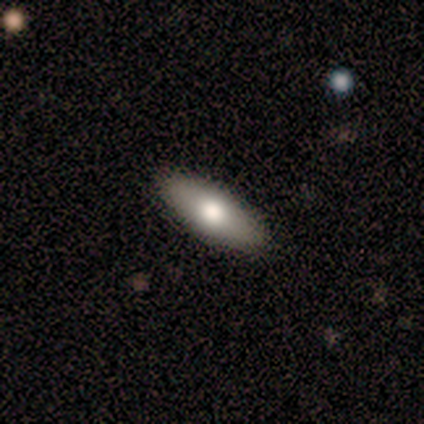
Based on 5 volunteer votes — Q: Smooth or featured?
A: smooth (40%); tied with: star or artifact (40%)
Q: How rounded?
A: in between (100%)
Q: Merging?
A: none (100%)